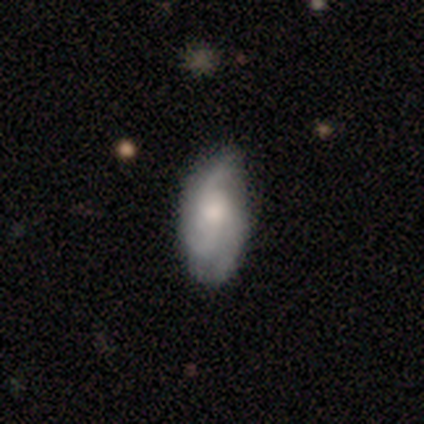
Smooth or featured: featured or disk — 60% (smooth — 40%)
Edge-on disk: no — 100%
Bar: no — 100%
Spiral arms: yes — 100%
Spiral winding: tight — 33% (tied with medium — 33%; loose — 33%)
Spiral arm count: 3 — 67% (2 — 33%)
Bulge size: moderate — 67% (small — 33%)
Merging: none — 80% (minor disturbance — 20%)